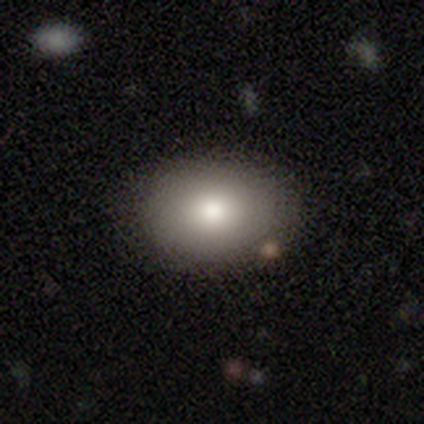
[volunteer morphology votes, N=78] smooth_or_featured: smooth (p=0.86) [alt: featured or disk p=0.12]
how_rounded: in between (p=0.63) [alt: round p=0.37]
merging: none (p=0.43) [alt: merger p=0.05]